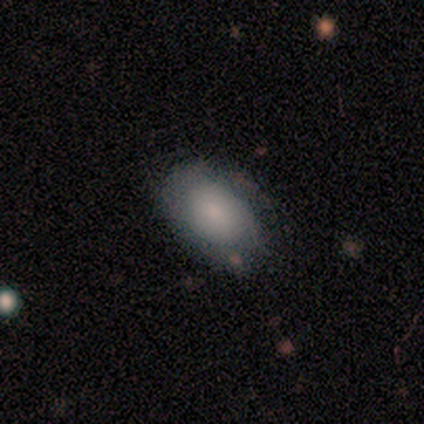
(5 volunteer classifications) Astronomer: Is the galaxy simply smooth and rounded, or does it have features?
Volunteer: smooth — 60% (runner-up: featured or disk, 40%).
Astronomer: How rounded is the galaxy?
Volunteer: in between — 67%.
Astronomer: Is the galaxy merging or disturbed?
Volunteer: none — 80%.